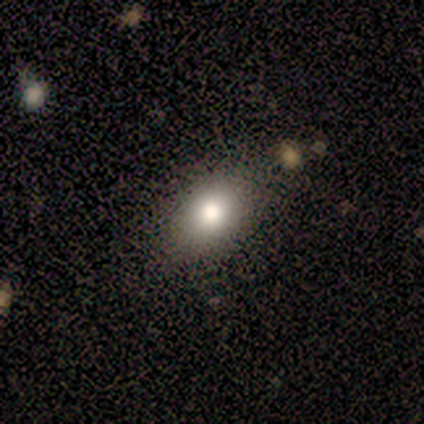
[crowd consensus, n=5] Overall: smooth (40%, tied with star or artifact). How rounded: round (50%, tied with in between). Merging: none (100%).